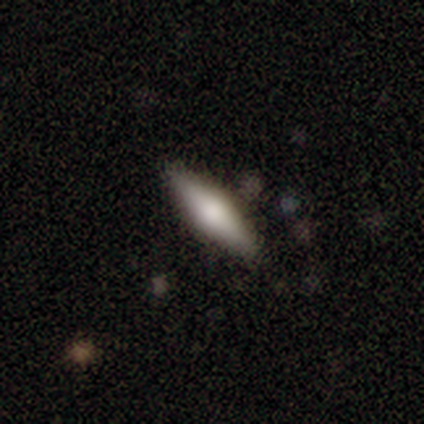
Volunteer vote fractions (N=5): Smooth or featured: smooth — 60% (featured or disk — 20%)
How rounded: cigar-shaped — 100%
Merging: none — 100%